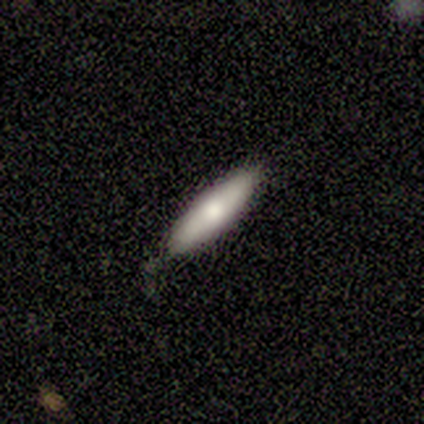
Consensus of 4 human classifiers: Volunteers were most divided on "how rounded": cigar-shaped: 75%, in between: 25%, round: 0%. More confident: smooth or featured — smooth (100%); merging — none (75%).